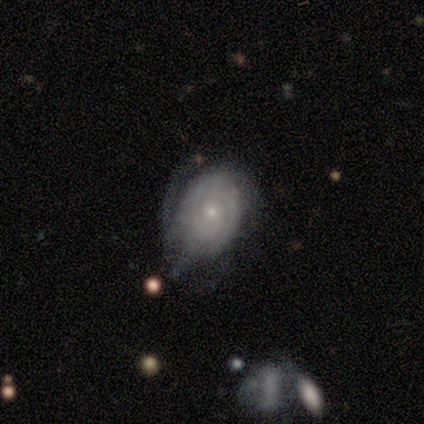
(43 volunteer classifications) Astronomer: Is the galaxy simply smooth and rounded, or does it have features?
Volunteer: featured or disk — 70%.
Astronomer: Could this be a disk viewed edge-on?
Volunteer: no — 93%.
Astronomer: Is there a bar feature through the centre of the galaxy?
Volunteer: no — 89%.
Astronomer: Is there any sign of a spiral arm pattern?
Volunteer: yes — 82%.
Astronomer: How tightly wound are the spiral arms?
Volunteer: tight — 78%.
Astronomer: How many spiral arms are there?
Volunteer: can't tell — 78%.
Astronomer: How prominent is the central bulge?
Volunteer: small — 64%.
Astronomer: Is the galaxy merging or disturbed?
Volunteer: major disturbance — 36% (runner-up: minor disturbance, 29%).